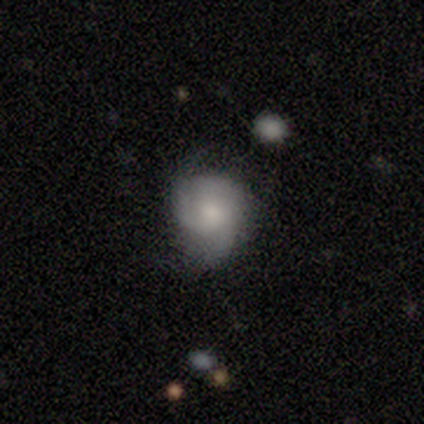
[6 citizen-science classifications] A smooth galaxy with no disk features (50%) that is round (67%).

Vote fractions:
- Smooth or featured? smooth: 50% / featured or disk: 33% / star or artifact: 17%
- How rounded? round: 67% / in between: 33% / cigar-shaped: 0%
- Merging? none: 60% / minor disturbance: 20% / major disturbance: 20% / merger: 0%